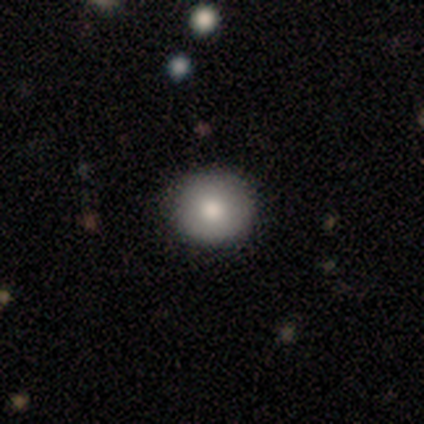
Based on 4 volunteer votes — A smooth galaxy with no disk features (50%, tied with featured or disk) that is round (100%). Merging: none (100%).